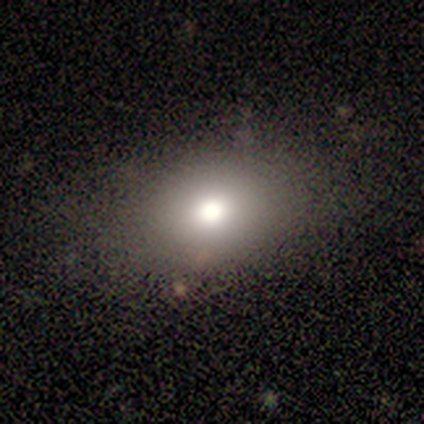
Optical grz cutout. It shows a smooth galaxy with no disk features (100%) that is round (50%, tied with in between). Merging: none (100%).